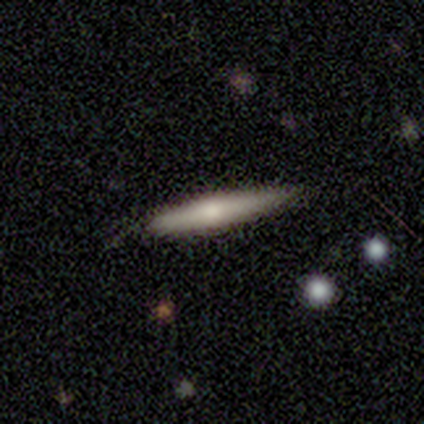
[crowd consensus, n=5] featured or disk 60%, smooth 40%, star or artifact 0%. Down the decision tree: edge-on disk — yes (100%); edge-on bulge — rounded (67%); merging — none (100%).